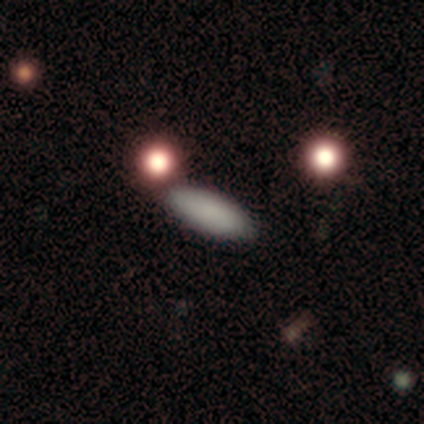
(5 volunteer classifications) smooth-or-featured: smooth: 100% | featured or disk: 0% | star or artifact: 0%
  how-rounded: in between: 60% | cigar-shaped: 40% | round: 0%
  merging: none: 100% | minor disturbance: 0% | major disturbance: 0% | merger: 0%